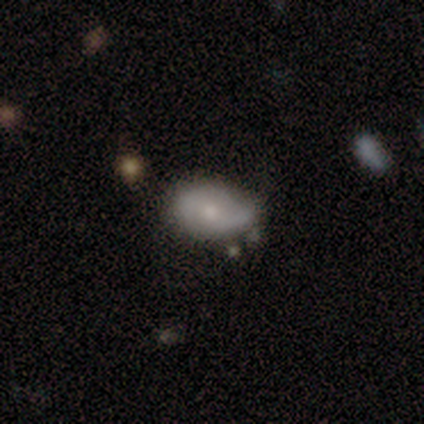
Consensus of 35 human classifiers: smooth 66%, featured or disk 31%, star or artifact 3%. Down the decision tree: how rounded — in between (83%); merging — minor disturbance (50%).